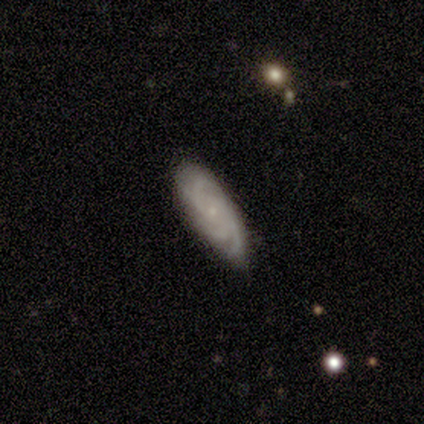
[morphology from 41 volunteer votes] Q: Smooth or featured?
A: featured or disk (88%); runner-up: smooth (10%)
Q: Edge-on disk?
A: no (97%); runner-up: yes (3%)
Q: Bar?
A: no (89%); runner-up: weak (9%)
Q: Spiral arms?
A: yes (97%); runner-up: no (3%)
Q: Spiral winding?
A: tight (68%); runner-up: medium (29%)
Q: Spiral arm count?
A: 3 (44%); runner-up: can't tell (26%)
Q: Bulge size?
A: small (91%); runner-up: none (6%)
Q: Merging?
A: none (78%); runner-up: minor disturbance (22%)